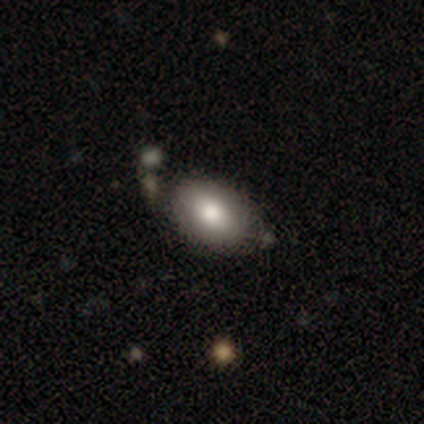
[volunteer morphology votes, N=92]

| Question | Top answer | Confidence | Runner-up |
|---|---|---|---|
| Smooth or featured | smooth | 79% | featured or disk (15%) |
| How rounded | in between | 85% | round (15%) |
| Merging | none | 76% | minor disturbance (18%) |